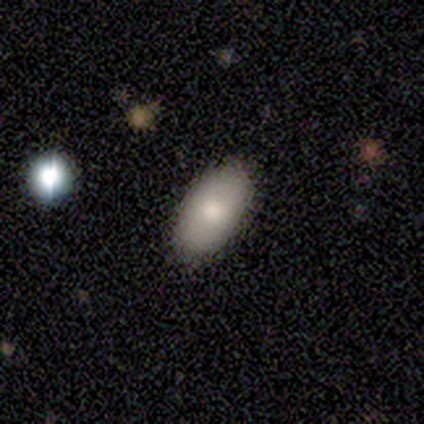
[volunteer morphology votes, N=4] Volunteers were most divided on "merging": none: 75%, major disturbance: 25%, minor disturbance: 0%, merger: 0%. More confident: smooth or featured — smooth (100%); how rounded — in between (100%).